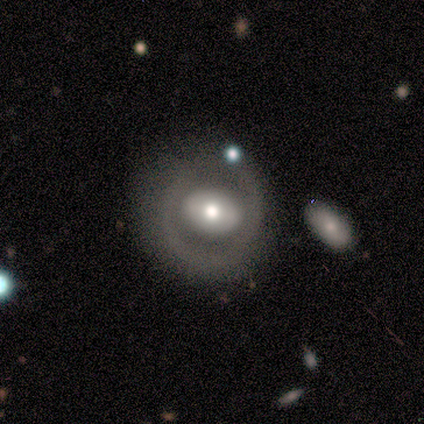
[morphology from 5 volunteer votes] Smooth or featured?
  - featured or disk: 80% *
  - smooth: 20%
  - star or artifact: 0%
Edge-on disk?
  - no: 75% *
  - yes: 25%
Bar?
  - no: 67% *
  - weak: 33%
  - strong: 0%
Spiral arms?
  - no: 100% *
  - yes: 0%
Bulge size?
  - moderate: 67% *
  - dominant: 33%
  - large: 0%
  - small: 0%
  - none: 0%
Merging?
  - none: 80% *
  - minor disturbance: 20%
  - major disturbance: 0%
  - merger: 0%